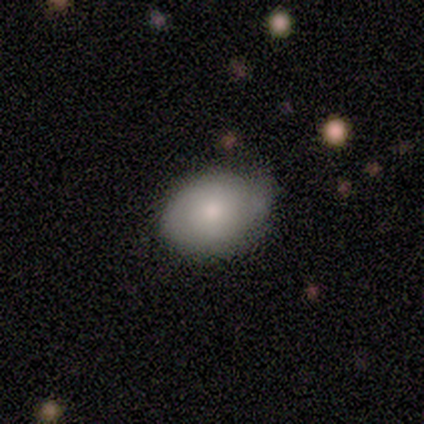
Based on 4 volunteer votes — Smooth or featured? 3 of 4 (75%) said smooth. How rounded? 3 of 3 (100%) said in between. Merging? 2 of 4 (50%, tied with minor disturbance) said none.